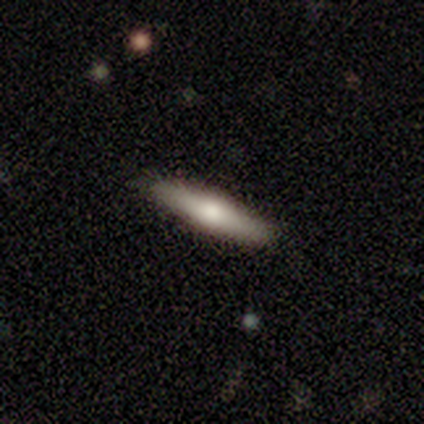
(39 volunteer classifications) This is possibly a smooth galaxy (56%). How rounded: clearly cigar-shaped (95%). Merging: clearly none (86%).